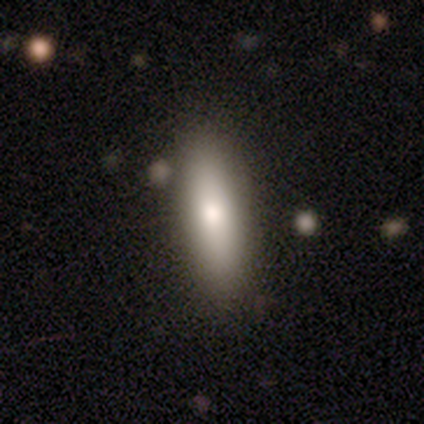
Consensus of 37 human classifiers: smooth-or-featured: smooth: 73% | featured or disk: 19% | star or artifact: 8%
  how-rounded: in between: 63% | cigar-shaped: 37% | round: 0%
  merging: none: 85% | minor disturbance: 12% | merger: 3% | major disturbance: 0%